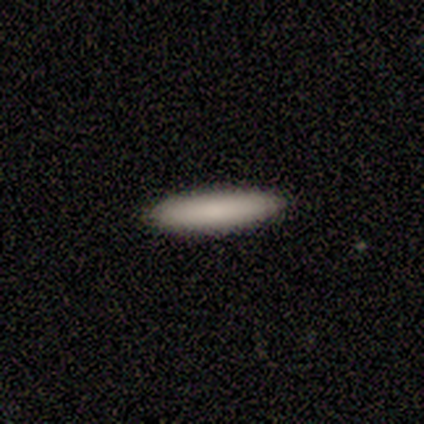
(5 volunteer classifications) This is clearly a smooth galaxy (100%). How rounded: clearly cigar-shaped (80%). Merging: clearly none (100%).